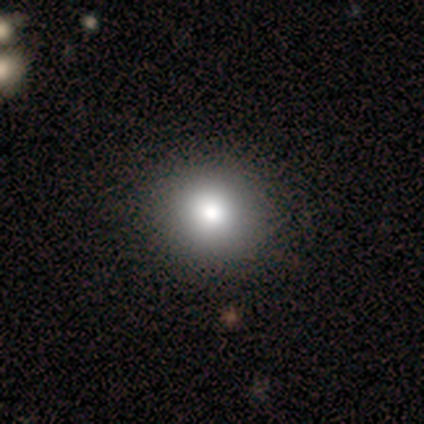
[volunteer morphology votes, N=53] Smooth or featured? 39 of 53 (74%) said smooth. How rounded? 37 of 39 (95%) said round. Merging? 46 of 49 (94%) said none.